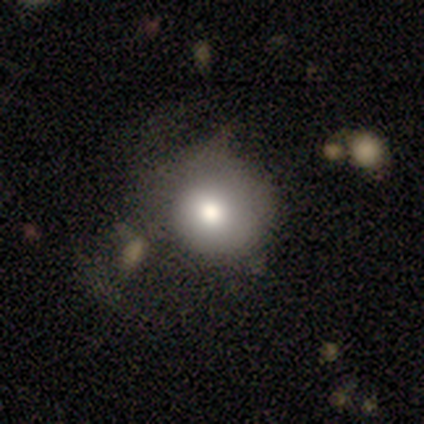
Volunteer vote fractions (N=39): smooth-or-featured: smooth: 72% | featured or disk: 18% | star or artifact: 10%
  how-rounded: round: 96% | in between: 4% | cigar-shaped: 0%
  merging: none: 43% | major disturbance: 29% | minor disturbance: 26% | merger: 3%